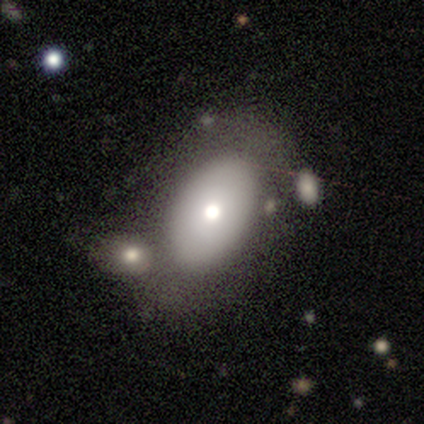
Smooth or featured?
  - smooth: 68% *
  - featured or disk: 32%
  - star or artifact: 0%
How rounded?
  - in between: 85% *
  - round: 15%
  - cigar-shaped: 0%
Merging?
  - none: 37% * (tied)
  - merger: 37% * (tied)
  - minor disturbance: 16%
  - major disturbance: 11%